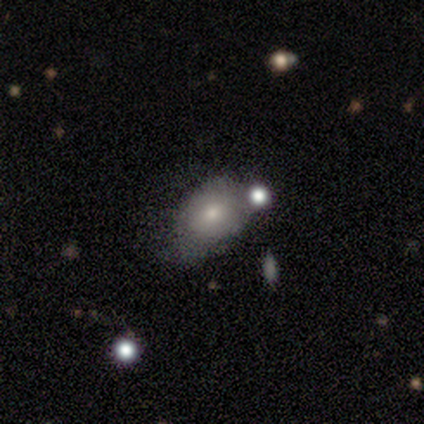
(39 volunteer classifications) A smooth galaxy with no disk features (72%) that is in between round and cigar-shaped (75%).

Vote fractions:
- Smooth or featured? smooth: 72% / featured or disk: 23% / star or artifact: 5%
- How rounded? in between: 75% / round: 25% / cigar-shaped: 0%
- Merging? minor disturbance: 35% / none: 32% / merger: 19% / major disturbance: 3%